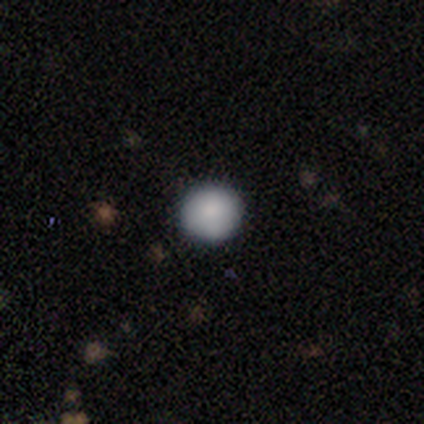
smooth 95%, featured or disk 3%, star or artifact 3%. Down the decision tree: how rounded — round (100%); merging — none (95%).